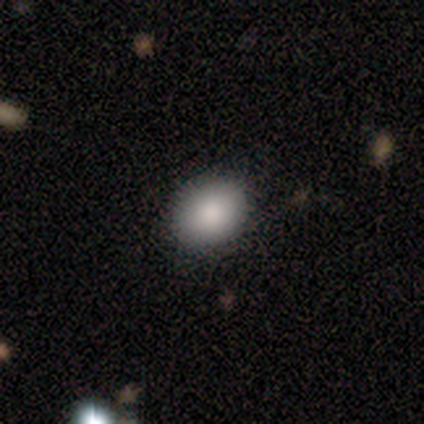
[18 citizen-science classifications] smooth 100%, featured or disk 0%, star or artifact 0%. Down the decision tree: how rounded — round (50%, tied with in between); merging — none (94%).